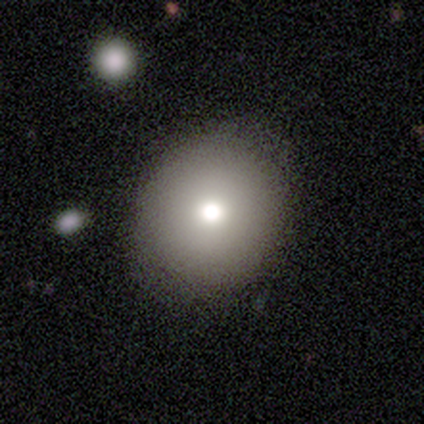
smooth-or-featured: smooth: 80% | featured or disk: 20% | star or artifact: 0%
  how-rounded: round: 100% | in between: 0% | cigar-shaped: 0%
  merging: none: 60% | minor disturbance: 40% | major disturbance: 0% | merger: 0%